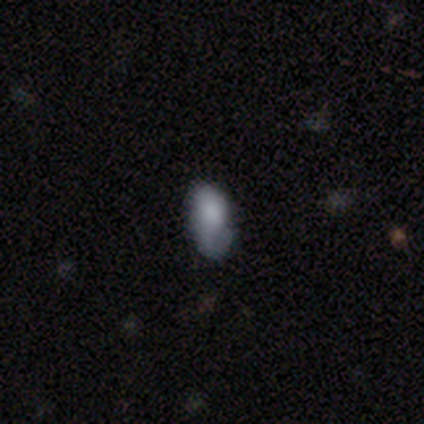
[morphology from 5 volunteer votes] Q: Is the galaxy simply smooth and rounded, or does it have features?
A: smooth — 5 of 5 (100%).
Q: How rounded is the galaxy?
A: in between — 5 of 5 (100%).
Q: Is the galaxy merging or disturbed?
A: minor disturbance — 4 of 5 (80%).